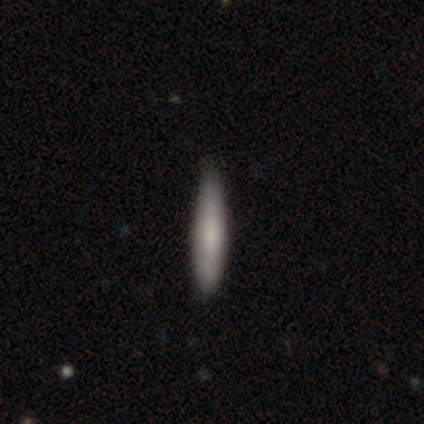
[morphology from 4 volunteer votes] Q: Smooth or featured?
A: smooth (50%); tied with: featured or disk (50%)
Q: How rounded?
A: cigar-shaped (100%)
Q: Merging?
A: none (75%); runner-up: minor disturbance (25%)